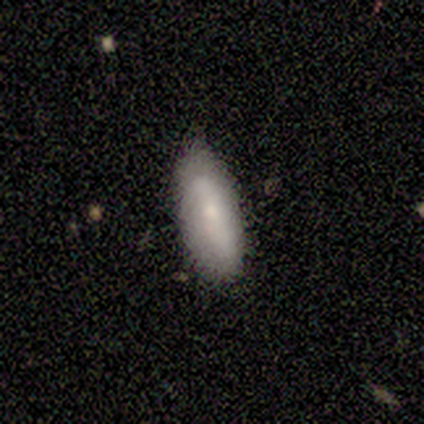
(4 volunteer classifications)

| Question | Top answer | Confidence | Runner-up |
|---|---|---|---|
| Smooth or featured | smooth | 100% | — |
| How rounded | in between | 75% | cigar-shaped (25%) |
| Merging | none | 75% | minor disturbance (25%) |